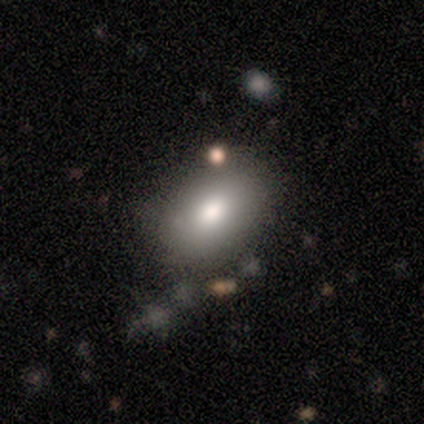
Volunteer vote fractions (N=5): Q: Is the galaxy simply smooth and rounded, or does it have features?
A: smooth — 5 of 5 (100%).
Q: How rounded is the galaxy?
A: in between — 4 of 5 (80%).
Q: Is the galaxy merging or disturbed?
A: none — 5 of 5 (100%).